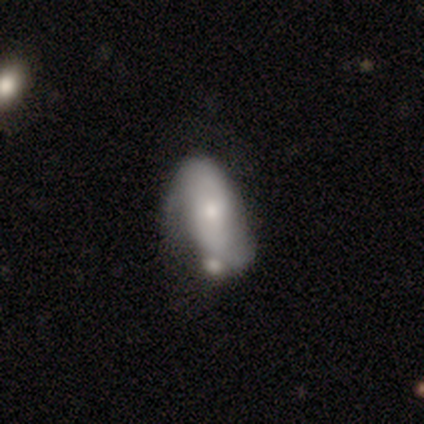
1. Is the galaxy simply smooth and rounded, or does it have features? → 49% featured or disk, 44% smooth, 7% star or artifact.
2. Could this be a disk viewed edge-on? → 95% no, 5% yes.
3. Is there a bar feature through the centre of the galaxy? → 65% no, 25% weak, 10% strong.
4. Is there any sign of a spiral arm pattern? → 60% yes, 40% no.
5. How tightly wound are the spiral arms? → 58% tight, 25% loose, 17% medium.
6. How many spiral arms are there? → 67% 2, 25% can't tell, 8% 1, 0% 3, 0% 4, 0% more than 4.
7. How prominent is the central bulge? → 80% small, 15% moderate, 5% none, 0% dominant, 0% large.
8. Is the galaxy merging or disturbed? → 35% minor disturbance, 30% merger, 28% none, 8% major disturbance.